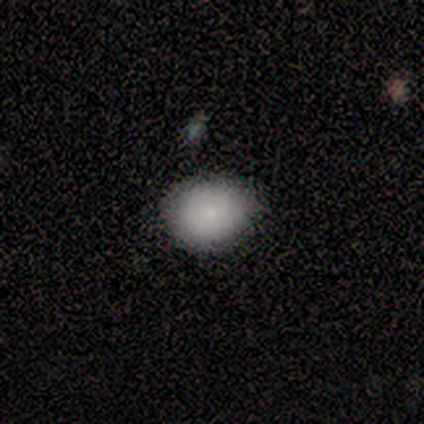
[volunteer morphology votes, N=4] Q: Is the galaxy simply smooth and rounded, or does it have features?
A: featured or disk — 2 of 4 (50%).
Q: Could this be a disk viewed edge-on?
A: no — 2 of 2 (100%).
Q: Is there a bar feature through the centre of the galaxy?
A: no — 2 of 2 (100%).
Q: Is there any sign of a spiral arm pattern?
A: no — 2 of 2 (100%).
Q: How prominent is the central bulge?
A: small — 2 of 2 (100%).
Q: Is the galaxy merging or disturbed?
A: none — 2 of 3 (67%).